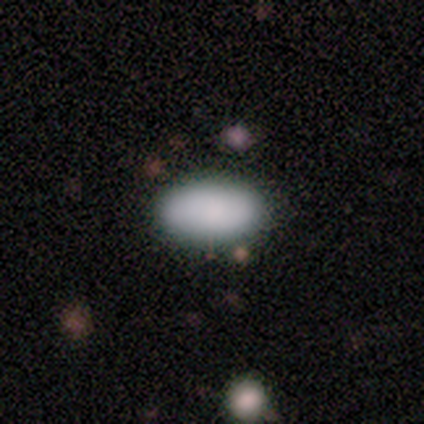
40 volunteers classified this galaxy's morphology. Smooth or featured?
  - smooth: 92% *
  - star or artifact: 5%
  - featured or disk: 2%
How rounded?
  - in between: 100% *
  - round: 0%
  - cigar-shaped: 0%
Merging?
  - none: 87% *
  - minor disturbance: 13%
  - major disturbance: 0%
  - merger: 0%